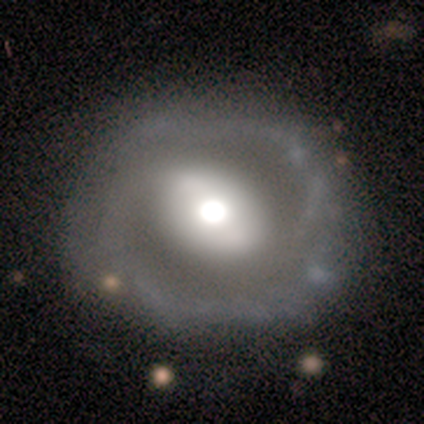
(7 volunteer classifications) Smooth or featured? 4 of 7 (57%) said featured or disk. Edge-on disk? 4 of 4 (100%) said no. Bar? 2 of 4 (50%) said strong. Spiral arms? 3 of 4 (75%) said no. Bulge size? 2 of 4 (50%) said moderate. Merging? 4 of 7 (57%) said major disturbance.